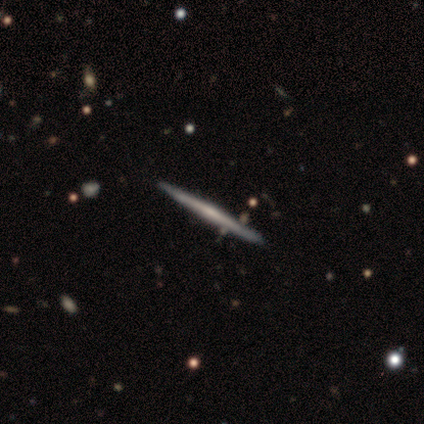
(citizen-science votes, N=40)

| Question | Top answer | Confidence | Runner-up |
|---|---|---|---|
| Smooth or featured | featured or disk | 75% | smooth (18%) |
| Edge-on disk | yes | 100% | — |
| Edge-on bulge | none | 50% | rounded (40%) |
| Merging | none | 89% | minor disturbance (5%) |